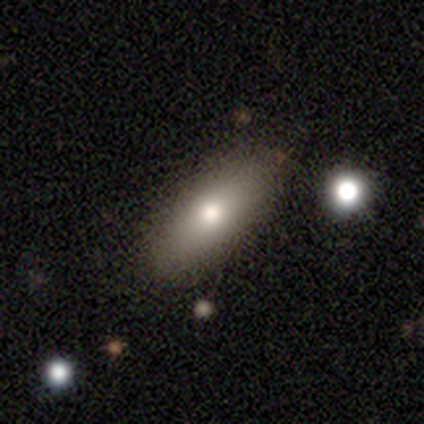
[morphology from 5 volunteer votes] Smooth or featured: smooth — 80% (featured or disk — 20%)
How rounded: in between — 100%
Merging: none — 80% (minor disturbance — 20%)